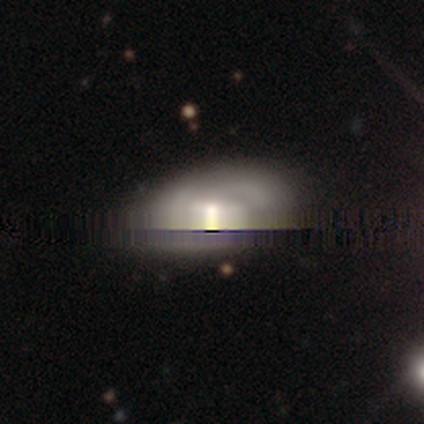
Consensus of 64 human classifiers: A featured or disk galaxy (42%) with a weak bar (38%), medium (64%) spiral arms (58%) and a moderate central bulge (54%).

Vote fractions:
- Smooth or featured? featured or disk: 42% / star or artifact: 31% / smooth: 27%
- Edge-on disk? no: 89% / yes: 11%
- Bar? weak: 38% / no: 33% / strong: 29%
- Spiral arms? yes: 58% / no: 42%
- Spiral winding? medium: 64% / tight: 29% / loose: 7%
- Spiral arm count? can't tell: 57% / 2: 29% / 1: 7% / 3: 7% / 4: 0% / more than 4: 0%
- Bulge size? moderate: 54% / large: 21% / small: 17% / dominant: 4% / none: 4%
- Merging? none: 52% / minor disturbance: 36% / major disturbance: 7% / merger: 5%